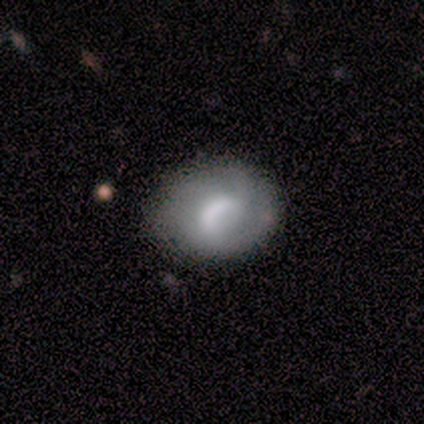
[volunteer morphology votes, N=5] A featured or disk galaxy (60%) with a weak bar (100%), no spiral arms (67%) and a large central bulge (33%, tied with moderate and none).

Vote fractions:
- Smooth or featured? featured or disk: 60% / smooth: 40% / star or artifact: 0%
- Edge-on disk? no: 100% / yes: 0%
- Bar? weak: 100% / strong: 0% / no: 0%
- Spiral arms? no: 67% / yes: 33%
- Bulge size? large: 33% (tied) / moderate: 33% (tied) / none: 33% (tied) / dominant: 0% / small: 0%
- Merging? none: 100% / minor disturbance: 0% / major disturbance: 0% / merger: 0%